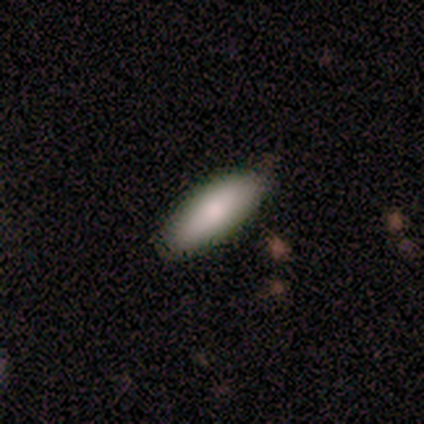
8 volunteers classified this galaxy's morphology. This appears to be a smooth galaxy with no disk features (100%) that is cigar-shaped (62%). Merging: none (88%).